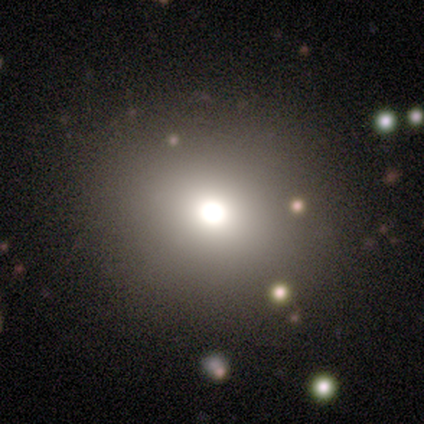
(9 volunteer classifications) This appears to be a smooth galaxy with no disk features (56%) that is round (100%). Merging: none (86%).